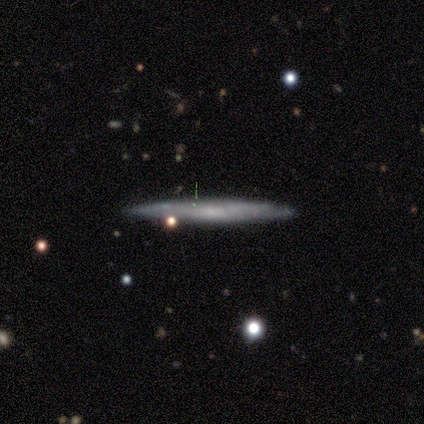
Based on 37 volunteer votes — Smooth or featured? 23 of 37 (62%) said featured or disk. Edge-on disk? 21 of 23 (91%) said yes. Edge-on bulge? 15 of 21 (71%) said none. Merging? 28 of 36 (78%) said none.